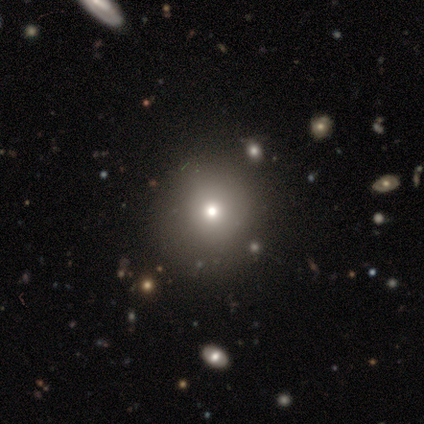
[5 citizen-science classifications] Volunteers were most divided on "smooth or featured": smooth: 80%, featured or disk: 20%, star or artifact: 0%. More confident: how rounded — round (100%); merging — none (80%).